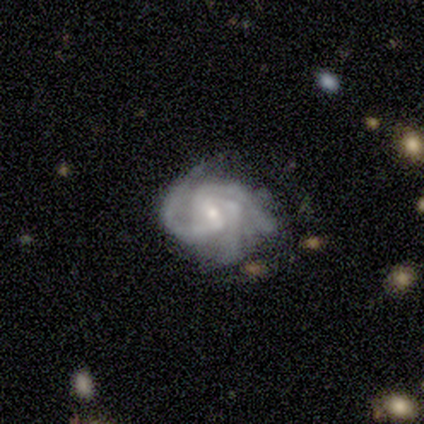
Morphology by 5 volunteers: smooth_or_featured: featured or disk (p=1.00)
disk_edge_on: no (p=1.00)
bar: weak (p=0.80) [alt: strong p=0.20]
has_spiral_arms: yes (p=1.00)
spiral_winding: tight (p=1.00)
spiral_arm_count: 3 (p=0.80) [alt: 4 p=0.20]
bulge_size: small (p=1.00)
merging: none (p=0.80) [alt: major disturbance p=0.20]